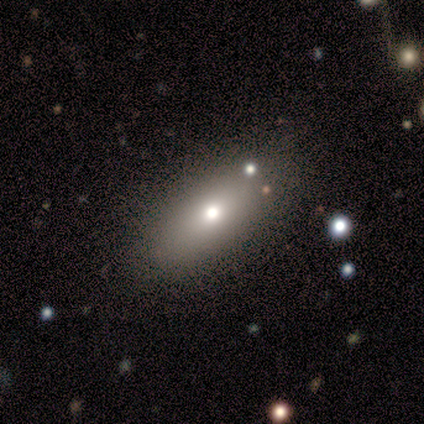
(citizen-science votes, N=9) This is likely a smooth galaxy (78%). How rounded: likely in between (71%). Merging: clearly none (88%).